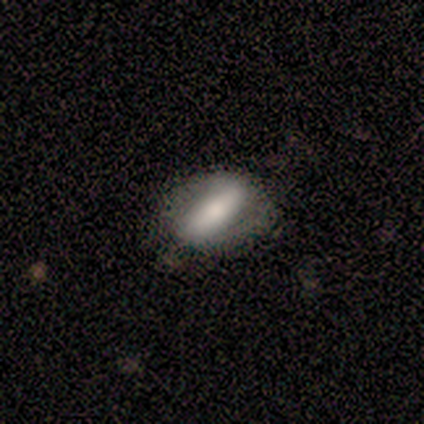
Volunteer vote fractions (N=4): This appears to be a smooth galaxy with no disk features (50%, tied with featured or disk) that is in between round and cigar-shaped (100%). Merging: none (100%).